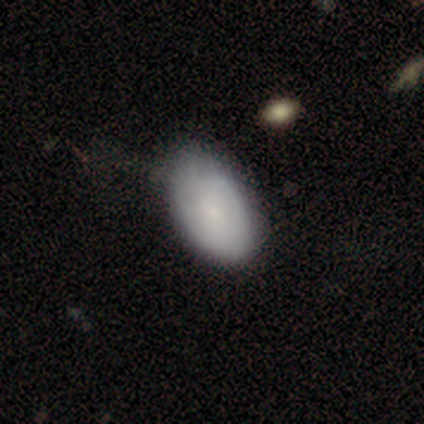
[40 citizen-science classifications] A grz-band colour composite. It shows a smooth galaxy with no disk features (65%) that is in between round and cigar-shaped (92%). Merging: none (60%).